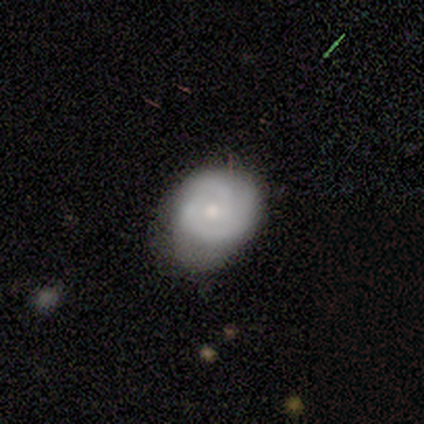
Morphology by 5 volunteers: smooth-or-featured: featured or disk: 80% | smooth: 20% | star or artifact: 0%
  disk-edge-on: no: 100% | yes: 0%
    bar: no: 75% | weak: 25% | strong: 0%
    has-spiral-arms: yes: 100% | no: 0%
      spiral-winding: tight: 75% | medium: 25% | loose: 0%
      spiral-arm-count: 2: 100% | 1: 0% | 3: 0% | 4: 0% | more than 4: 0% | can't tell: 0%
    bulge-size: small: 50% | moderate: 25% | none: 25% | dominant: 0% | large: 0%
  merging: none: 100% | minor disturbance: 0% | major disturbance: 0% | merger: 0%